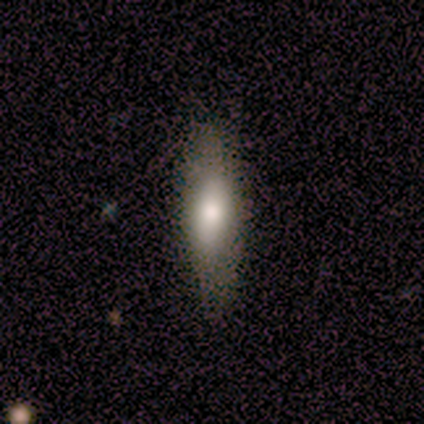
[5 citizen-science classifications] Smooth or featured: featured or disk — 60% (smooth — 40%)
Edge-on disk: yes — 67% (no — 33%)
Edge-on bulge: boxy — 50% (tied with rounded — 50%)
Merging: none — 80% (minor disturbance — 20%)